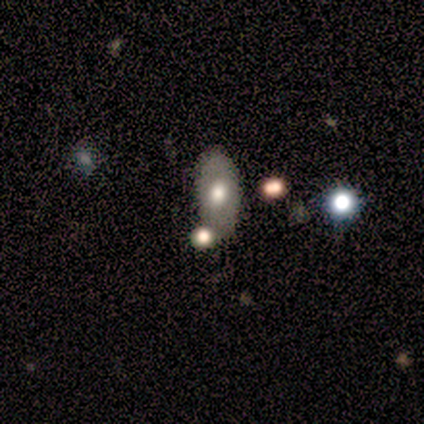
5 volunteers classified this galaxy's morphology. smooth 60%, featured or disk 20%, star or artifact 20%. Down the decision tree: how rounded — in between (100%); merging — none (50%).